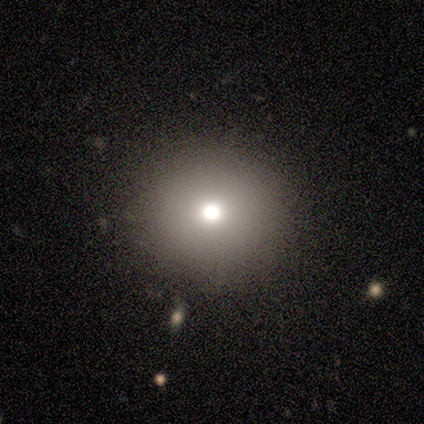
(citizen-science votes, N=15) A smooth galaxy with no disk features (80%) that is round (100%).

Vote fractions:
- Smooth or featured? smooth: 80% / star or artifact: 13% / featured or disk: 7%
- How rounded? round: 100% / in between: 0% / cigar-shaped: 0%
- Merging? none: 85% / minor disturbance: 15% / major disturbance: 0% / merger: 0%